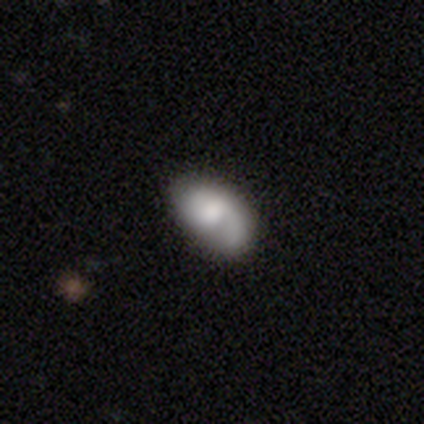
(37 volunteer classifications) This is possibly a featured or disk galaxy (51%). It is clearly not viewed edge-on (100%). Bar: likely no (79%). Spiral arm pattern: likely yes (79%). Spiral arm count: likely 1 (73%). Spiral winding: marginally tight (40%). Central bulge: marginally large (37%). Merging: likely none (76%).